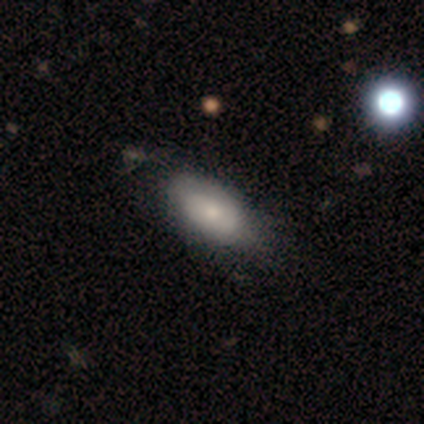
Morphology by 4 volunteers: Smooth or featured: smooth — 100%
How rounded: in between — 50% (round — 25%)
Merging: none — 75% (major disturbance — 25%)